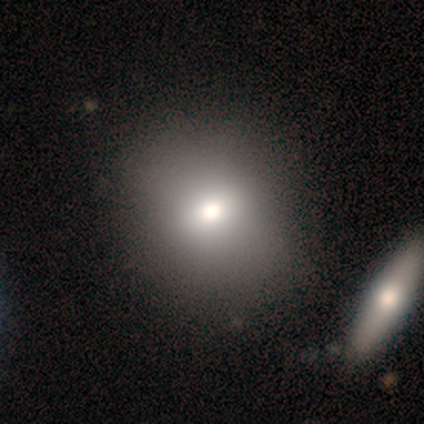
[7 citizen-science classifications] Volunteers were most divided on "how rounded": round: 71%, in between: 29%, cigar-shaped: 0%. More confident: smooth or featured — smooth (100%); merging — none (86%).